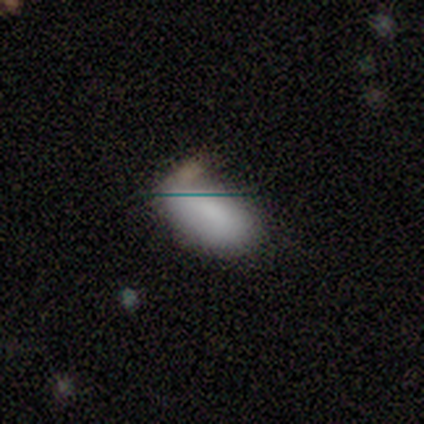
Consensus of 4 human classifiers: Volunteers were most divided on "smooth or featured" (2-way tie): smooth: 50%, star or artifact: 50%, featured or disk: 0%; "merging" (2-way tie): none: 50%, minor disturbance: 50%, major disturbance: 0%, merger: 0%. More confident: how rounded — in between (100%).